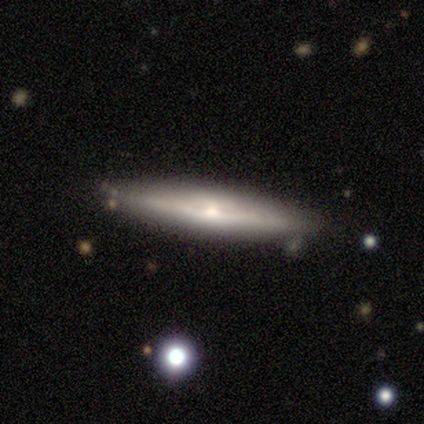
Smooth or featured? 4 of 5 (80%) said featured or disk. Edge-on disk? 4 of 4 (100%) said yes. Edge-on bulge? 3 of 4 (75%) said rounded. Merging? 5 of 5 (100%) said none.